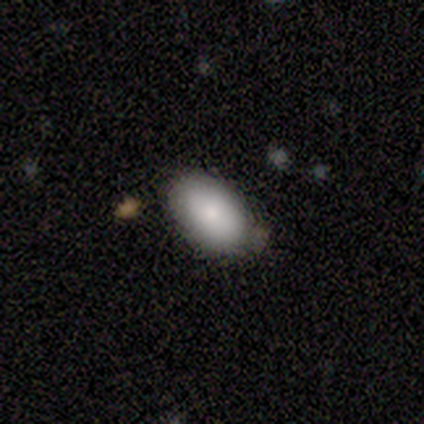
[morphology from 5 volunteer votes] Q: Smooth or featured?
A: smooth (80%); runner-up: featured or disk (20%)
Q: How rounded?
A: in between (100%)
Q: Merging?
A: none (80%); runner-up: merger (20%)